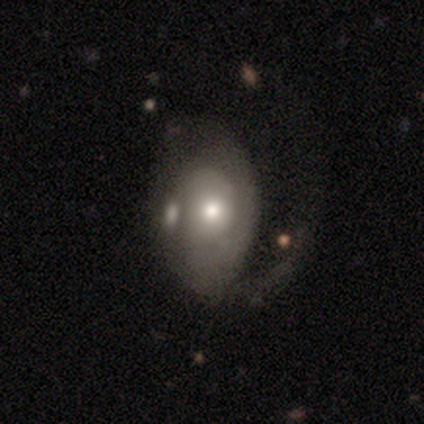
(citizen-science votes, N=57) Smooth or featured?
  - featured or disk: 61% *
  - smooth: 32%
  - star or artifact: 7%
Edge-on disk?
  - no: 97% *
  - yes: 3%
Bar?
  - no: 97% *
  - weak: 3%
  - strong: 0%
Spiral arms?
  - yes: 65% *
  - no: 35%
Spiral winding?
  - medium: 36% * (tied)
  - loose: 36% * (tied)
  - tight: 27%
Spiral arm count?
  - 1: 50% *
  - can't tell: 27%
  - 2: 23%
  - 3: 0%
  - 4: 0%
  - more than 4: 0%
Bulge size?
  - moderate: 76% *
  - large: 15%
  - small: 9%
  - dominant: 0%
  - none: 0%
Merging?
  - major disturbance: 45% *
  - none: 25%
  - minor disturbance: 23%
  - merger: 8%